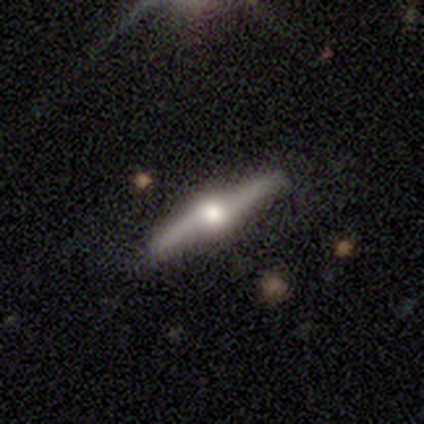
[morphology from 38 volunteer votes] smooth_or_featured: featured or disk (p=0.84) [alt: smooth p=0.13]
disk_edge_on: yes (p=0.94) [alt: no p=0.06]
edge_on_bulge: rounded (p=0.97) [alt: none p=0.03]
merging: none (p=0.86) [alt: minor disturbance p=0.08]